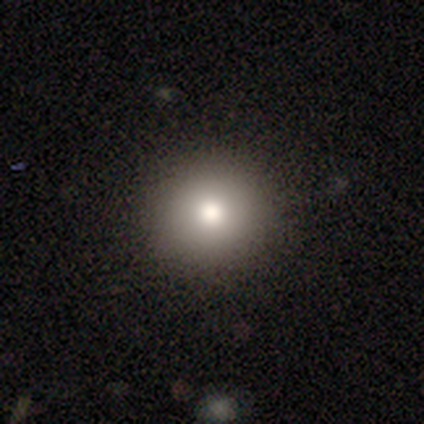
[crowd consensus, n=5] smooth_or_featured: smooth (p=1.00)
how_rounded: round (p=1.00)
merging: none (p=1.00)